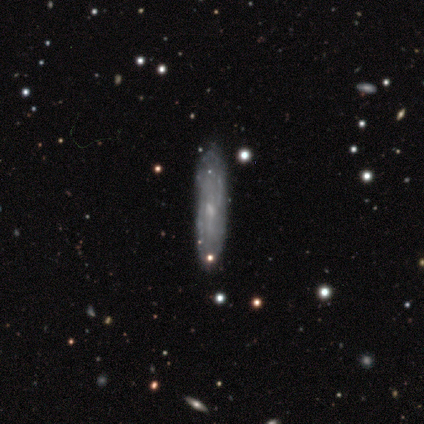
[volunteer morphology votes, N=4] smooth 75%, featured or disk 25%, star or artifact 0%. Down the decision tree: how rounded — cigar-shaped (100%); merging — none (75%).